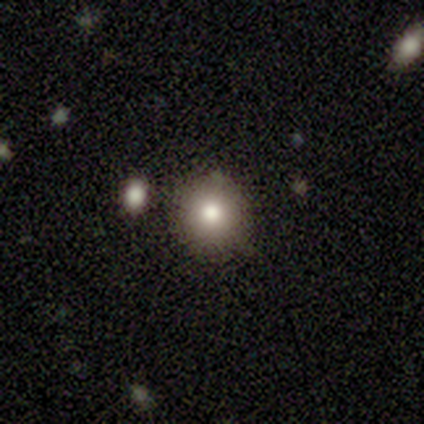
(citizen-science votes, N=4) A smooth galaxy with no disk features (100%) that is round (100%).

Vote fractions:
- Smooth or featured? smooth: 100% / featured or disk: 0% / star or artifact: 0%
- How rounded? round: 100% / in between: 0% / cigar-shaped: 0%
- Merging? none: 100% / minor disturbance: 0% / major disturbance: 0% / merger: 0%